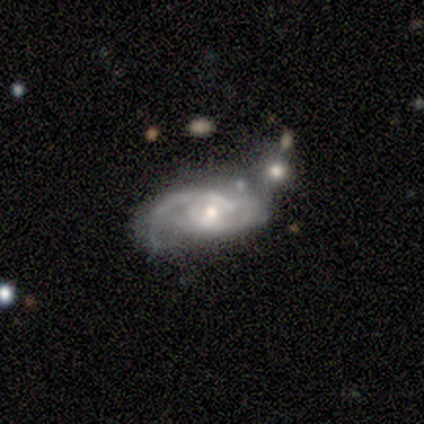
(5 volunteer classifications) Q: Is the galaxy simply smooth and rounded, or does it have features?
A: featured or disk — 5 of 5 (100%).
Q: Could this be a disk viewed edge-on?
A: no — 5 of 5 (100%).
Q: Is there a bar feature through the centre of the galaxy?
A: no — 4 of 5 (80%).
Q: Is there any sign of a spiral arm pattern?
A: yes — 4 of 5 (80%).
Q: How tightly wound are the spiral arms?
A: medium — 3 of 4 (75%).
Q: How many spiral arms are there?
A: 2 — 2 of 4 (50%).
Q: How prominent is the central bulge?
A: small — 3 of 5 (60%).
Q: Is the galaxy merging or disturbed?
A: none — 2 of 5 (40%, tied with merger).